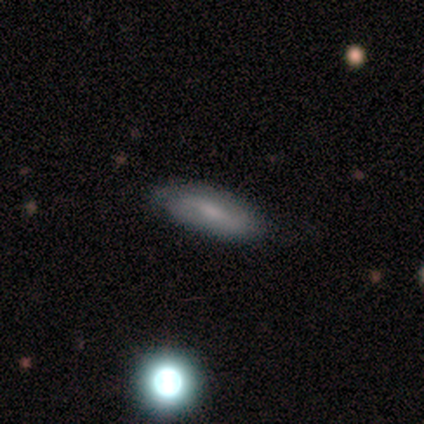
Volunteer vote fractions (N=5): Morphology: type=featured or disk (80%); edge-on=no (75%); bar=strong (67%); spiral arms=yes (100%); winding=loose (67%); arm count=2 (100%); bulge=small (67%); merging=none (100%).